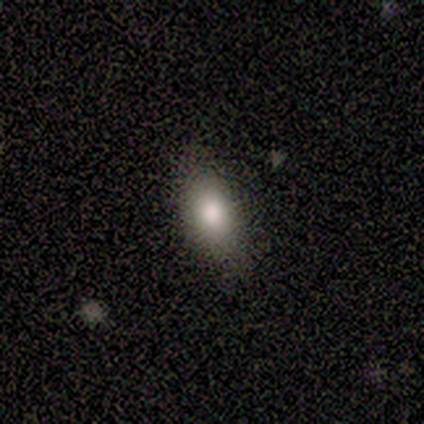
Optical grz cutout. It shows a smooth galaxy with no disk features (91%) that is in between round and cigar-shaped (100%). Merging: none (82%).